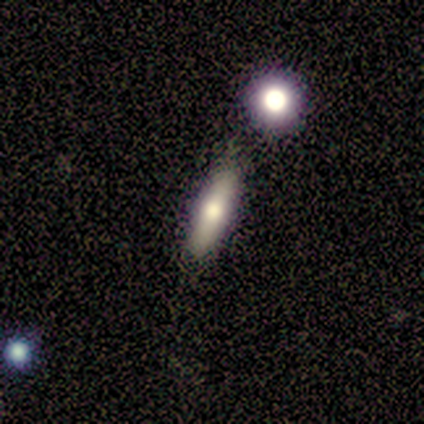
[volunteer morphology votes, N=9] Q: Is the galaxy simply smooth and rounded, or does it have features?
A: smooth — 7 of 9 (78%).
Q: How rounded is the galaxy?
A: cigar-shaped — 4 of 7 (57%).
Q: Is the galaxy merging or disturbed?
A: none — 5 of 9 (56%).